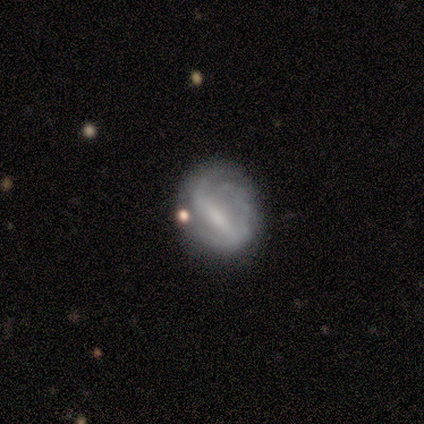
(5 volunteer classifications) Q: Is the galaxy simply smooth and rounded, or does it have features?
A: featured or disk — 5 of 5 (100%).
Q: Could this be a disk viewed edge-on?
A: no — 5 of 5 (100%).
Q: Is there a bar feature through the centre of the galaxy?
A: strong — 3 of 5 (60%).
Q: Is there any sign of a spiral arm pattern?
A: yes — 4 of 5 (80%).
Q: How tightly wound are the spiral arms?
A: tight — 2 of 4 (50%, tied with loose).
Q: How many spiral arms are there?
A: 1 — 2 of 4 (50%, tied with 2).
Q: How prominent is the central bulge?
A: small — 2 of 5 (40%, tied with none).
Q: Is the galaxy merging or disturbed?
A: none — 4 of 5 (80%).